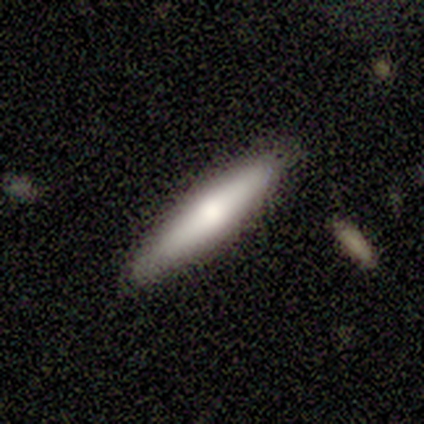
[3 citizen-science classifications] A smooth galaxy with no disk features (67%) that is cigar-shaped (100%).

Vote fractions:
- Smooth or featured? smooth: 67% / featured or disk: 33% / star or artifact: 0%
- How rounded? cigar-shaped: 100% / round: 0% / in between: 0%
- Merging? none: 100% / minor disturbance: 0% / major disturbance: 0% / merger: 0%